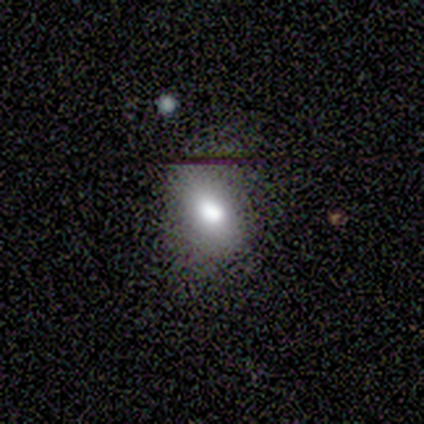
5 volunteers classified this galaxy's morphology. Smooth or featured: smooth — 80% (star or artifact — 20%)
How rounded: in between — 100%
Merging: minor disturbance — 50% (none — 25%)